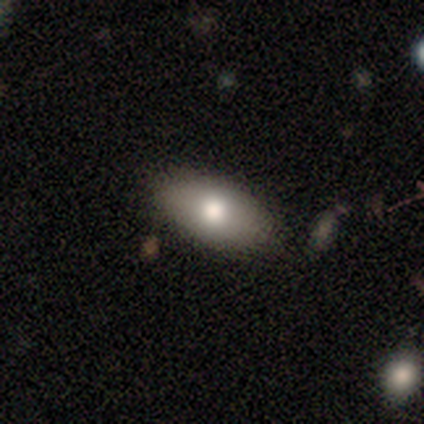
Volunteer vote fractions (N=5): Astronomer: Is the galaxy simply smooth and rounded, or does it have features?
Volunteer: smooth — 100%.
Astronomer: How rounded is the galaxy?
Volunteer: in between — 80%.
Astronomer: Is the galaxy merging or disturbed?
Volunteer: none — 100%.